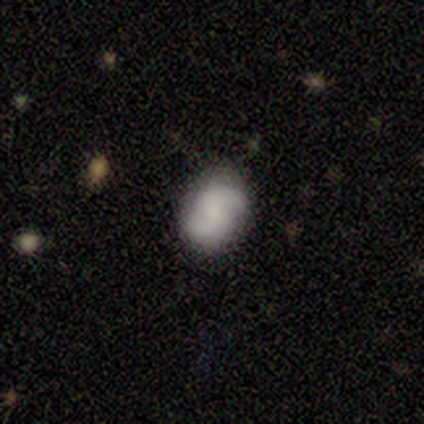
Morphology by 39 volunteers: type=featured or disk (69%); edge-on=no (96%); bar=no (54%); spiral arms=yes (92%); winding=tight (38%); arm count=2 (88%); bulge=moderate (38%); merging=none (69%).